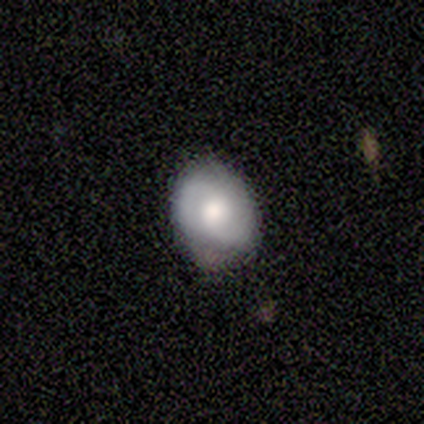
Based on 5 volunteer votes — Volunteers were most divided on "smooth or featured" (2-way tie): smooth: 40%, featured or disk: 40%, star or artifact: 20%. More confident: how rounded — round (100%); merging — none (100%).